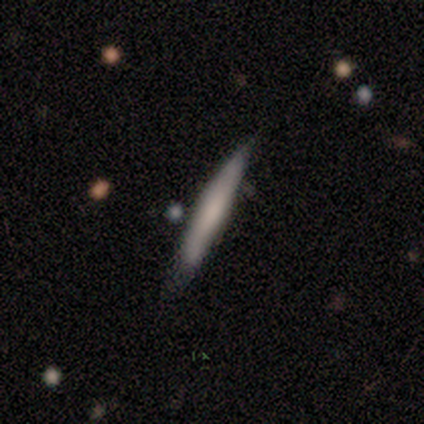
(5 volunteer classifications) Smooth or featured? smooth (80%)
How rounded? cigar-shaped (100%)
Merging? none (100%)